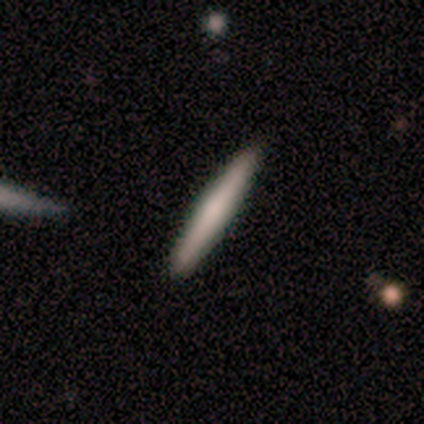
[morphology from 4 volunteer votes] type=smooth (100%); roundness=cigar-shaped (100%); merging=none (100%).